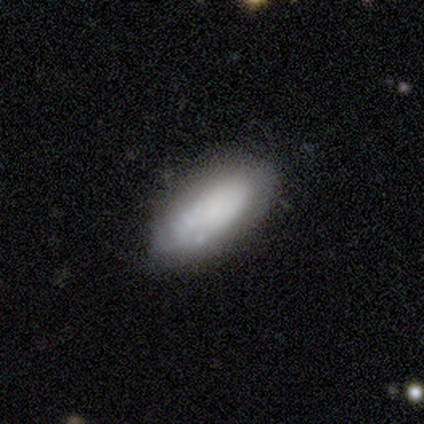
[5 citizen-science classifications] Smooth or featured? smooth (100%)
How rounded? in between (100%)
Merging? none (60%)